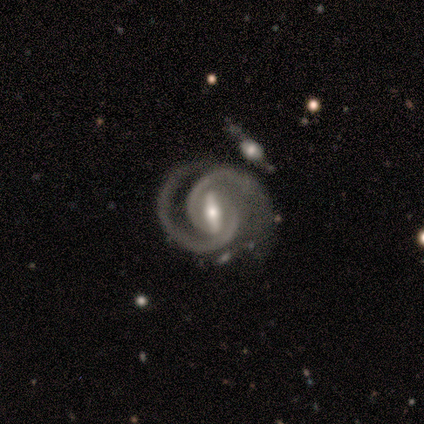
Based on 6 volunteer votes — smooth-or-featured: featured or disk: 100% | smooth: 0% | star or artifact: 0%
  disk-edge-on: no: 100% | yes: 0%
    bar: strong: 67% | weak: 33% | no: 0%
    has-spiral-arms: yes: 100% | no: 0%
      spiral-winding: tight: 50% | medium: 33% | loose: 17%
      spiral-arm-count: 2: 100% | 1: 0% | 3: 0% | 4: 0% | more than 4: 0% | can't tell: 0%
    bulge-size: small: 83% | moderate: 17% | dominant: 0% | large: 0% | none: 0%
  merging: none: 50% | merger: 33% | major disturbance: 17% | minor disturbance: 0%